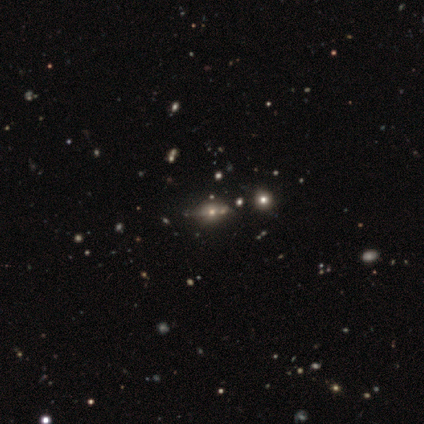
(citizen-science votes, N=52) Smooth or featured? featured or disk (37%)
Edge-on disk? no (63%)
Bar? no (83%)
Spiral arms? no (92%)
Bulge size? moderate (58%)
Merging? none (56%)